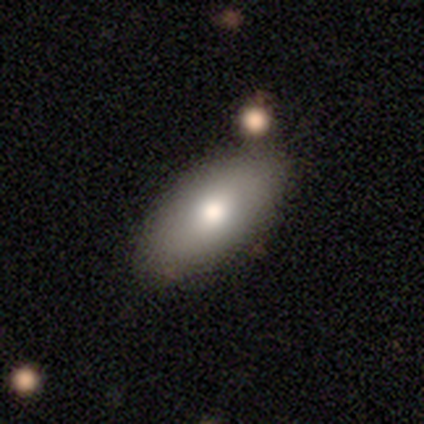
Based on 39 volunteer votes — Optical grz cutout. It shows a smooth galaxy with no disk features (85%) that is in between round and cigar-shaped (94%). Merging: none (90%).